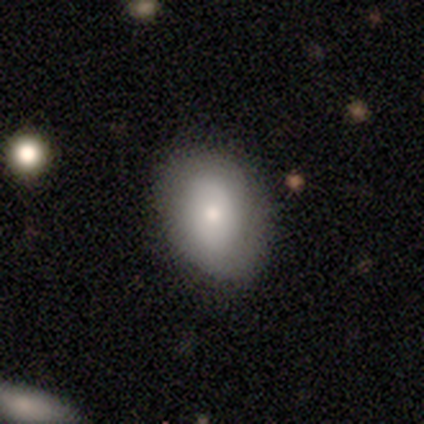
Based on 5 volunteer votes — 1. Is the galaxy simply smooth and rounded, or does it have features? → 100% smooth, 0% featured or disk, 0% star or artifact.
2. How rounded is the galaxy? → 100% in between, 0% round, 0% cigar-shaped.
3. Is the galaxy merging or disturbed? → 80% none, 20% minor disturbance, 0% major disturbance, 0% merger.